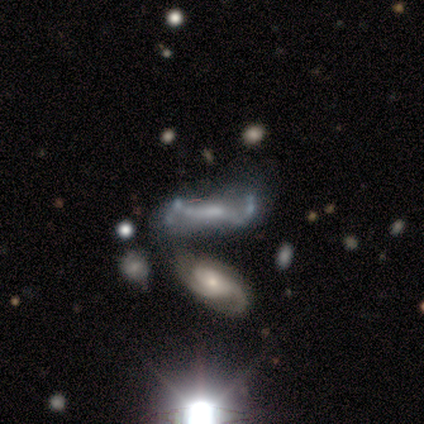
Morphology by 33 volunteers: A featured or disk galaxy (73%) with a weak bar (48%, tied with no), 2 (54%) loose (46%) spiral arms (57%) and a small central bulge (52%).

Vote fractions:
- Smooth or featured? featured or disk: 73% / smooth: 18% / star or artifact: 9%
- Edge-on disk? no: 96% / yes: 4%
- Bar? weak: 48% (tied) / no: 48% (tied) / strong: 4%
- Spiral arms? yes: 57% / no: 43%
- Spiral winding? loose: 46% / medium: 31% / tight: 23%
- Spiral arm count? 2: 54% / can't tell: 23% / 3: 15% / 4: 8% / 1: 0% / more than 4: 0%
- Bulge size? small: 52% / moderate: 26% / none: 22% / dominant: 0% / large: 0%
- Merging? none: 33% / major disturbance: 30% / minor disturbance: 20% / merger: 17%